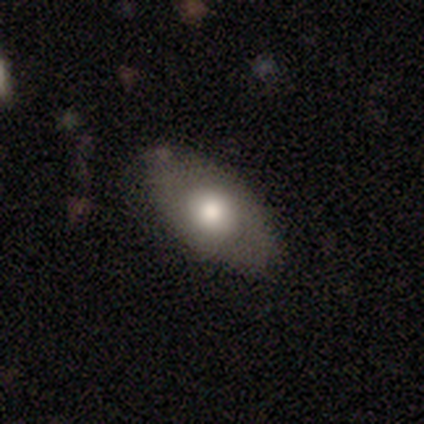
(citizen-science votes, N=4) smooth_or_featured: featured or disk (p=0.75) [alt: smooth p=0.25]
disk_edge_on: no (p=0.67) [alt: yes p=0.33]
bar: no (p=1.00)
has_spiral_arms: no (p=1.00)
bulge_size: moderate (p=1.00)
merging: none (p=0.75) [alt: minor disturbance p=0.25]